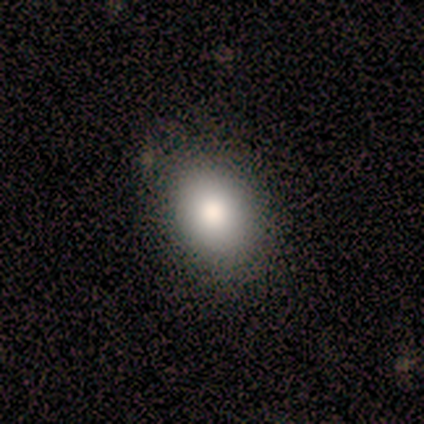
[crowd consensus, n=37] Volunteers were most divided on "how rounded": in between: 67%, round: 33%, cigar-shaped: 0%. More confident: merging — none (86%); smooth or featured — smooth (73%).